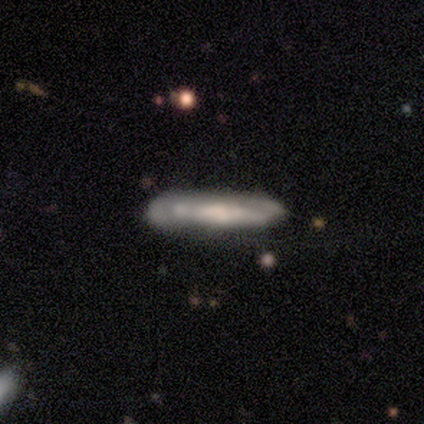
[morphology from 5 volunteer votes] featured or disk 100%, smooth 0%, star or artifact 0%. Down the decision tree: edge-on disk — yes (80%); edge-on bulge — rounded (75%); merging — none (60%).